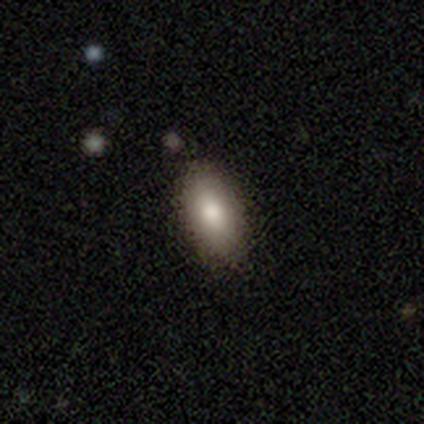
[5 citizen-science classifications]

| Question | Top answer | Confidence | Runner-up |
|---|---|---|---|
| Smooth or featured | smooth | 100% | — |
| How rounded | in between | 60% | cigar-shaped (40%) |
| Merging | none | 100% | — |